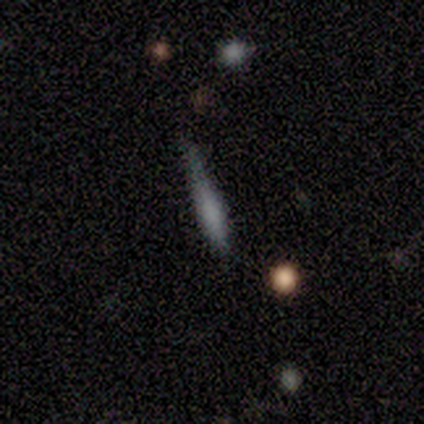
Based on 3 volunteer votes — This appears to be a smooth galaxy with no disk features (100%) that is cigar-shaped (67%). Merging: none (33%, tied with minor disturbance and major disturbance).